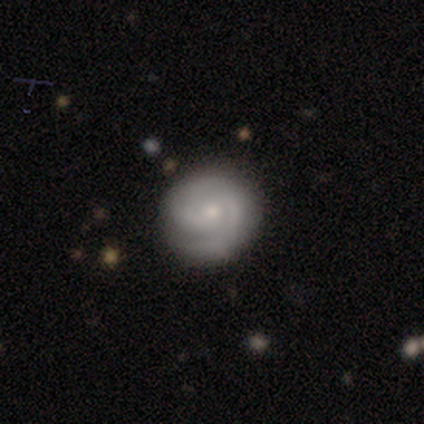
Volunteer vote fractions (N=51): Volunteers were most divided on "spiral arm count": 2: 56%, can't tell: 18%, 1: 13%, 3: 8%, 4: 5%, more than 4: 0%. More confident: edge-on disk — no (98%); spiral arms — yes (98%); merging — none (94%); bar — no (88%); smooth or featured — featured or disk (80%); bulge size — small (72%); spiral winding — tight (72%).